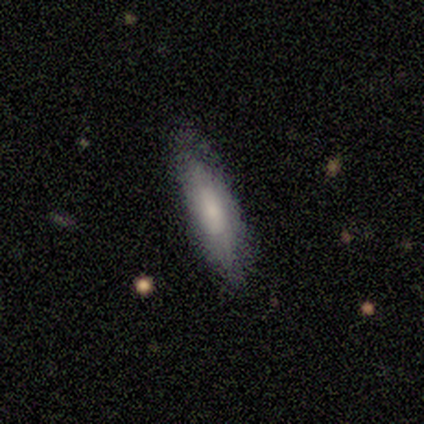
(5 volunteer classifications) smooth_or_featured: smooth (p=1.00)
how_rounded: cigar-shaped (p=0.60) [alt: in between p=0.40]
merging: none (p=0.80) [alt: minor disturbance p=0.20]